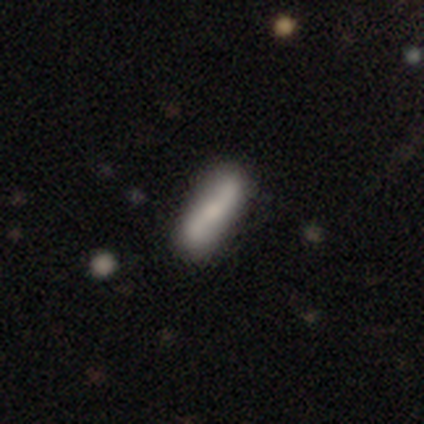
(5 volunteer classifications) Overall: smooth (80%). How rounded: in between (50%, tied with cigar-shaped). Merging: none (80%).